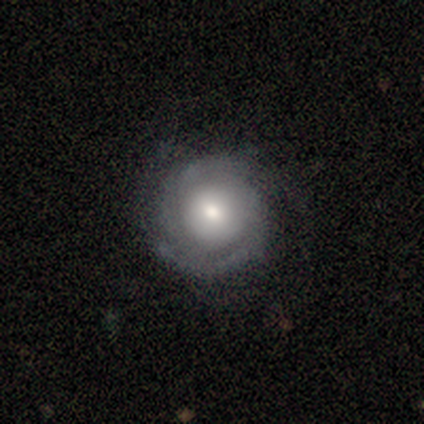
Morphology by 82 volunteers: Smooth or featured? featured or disk (77%)
Edge-on disk? no (98%)
Bar? no (79%)
Spiral arms? yes (87%)
Spiral winding? tight (72%)
Spiral arm count? 2 (50%)
Bulge size? moderate (65%)
Merging? none (84%)